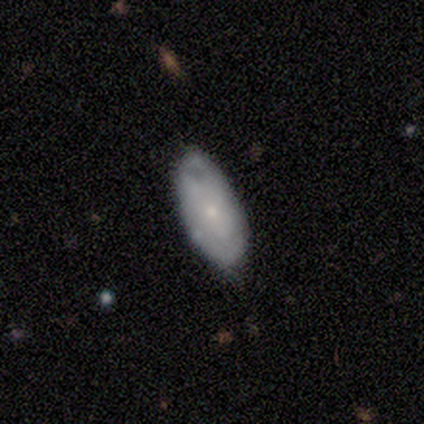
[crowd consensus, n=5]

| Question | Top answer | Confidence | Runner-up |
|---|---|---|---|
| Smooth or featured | featured or disk | 60% | smooth (40%) |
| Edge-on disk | no | 100% | — |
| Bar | no | 67% | weak (33%) |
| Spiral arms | no | 67% | yes (33%) |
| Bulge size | small | 67% | moderate (33%) |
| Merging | none | 60% | minor disturbance (20%) |